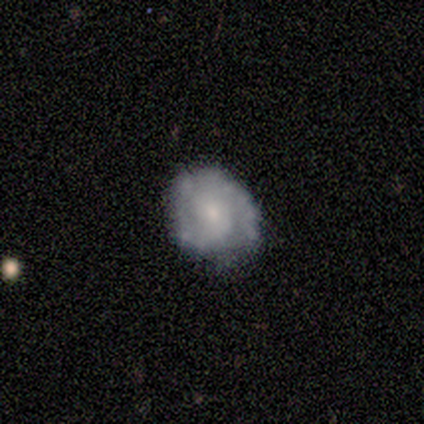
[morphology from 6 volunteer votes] Smooth or featured?
  - featured or disk: 83% *
  - smooth: 17%
  - star or artifact: 0%
Edge-on disk?
  - no: 100% *
  - yes: 0%
Bar?
  - no: 80% *
  - weak: 20%
  - strong: 0%
Spiral arms?
  - yes: 80% *
  - no: 20%
Spiral winding?
  - medium: 75% *
  - tight: 25%
  - loose: 0%
Spiral arm count?
  - 2: 75% *
  - 3: 25%
  - 1: 0%
  - 4: 0%
  - more than 4: 0%
  - can't tell: 0%
Bulge size?
  - small: 80% *
  - moderate: 20%
  - dominant: 0%
  - large: 0%
  - none: 0%
Merging?
  - none: 83% *
  - major disturbance: 17%
  - minor disturbance: 0%
  - merger: 0%